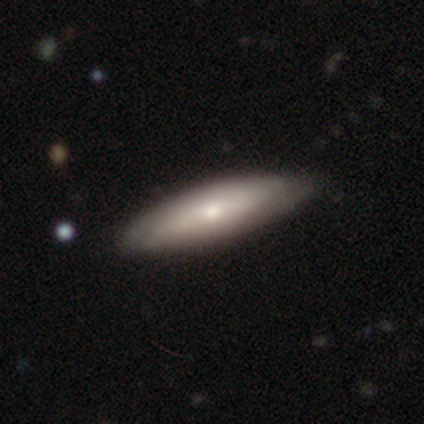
A featured or disk galaxy (54%) with no bar (83%), tight (89%) spiral arms (75%) and a moderate central bulge (67%).

Vote fractions:
- Smooth or featured? featured or disk: 54% / smooth: 44% / star or artifact: 3%
- Edge-on disk? no: 57% / yes: 43%
- Bar? no: 83% / strong: 8% / weak: 8%
- Spiral arms? yes: 75% / no: 25%
- Spiral winding? tight: 89% / medium: 11% / loose: 0%
- Spiral arm count? can't tell: 78% / 2: 22% / 1: 0% / 3: 0% / 4: 0% / more than 4: 0%
- Bulge size? moderate: 67% / small: 33% / dominant: 0% / large: 0% / none: 0%
- Merging? none: 66% / minor disturbance: 11% / major disturbance: 5% / merger: 0%